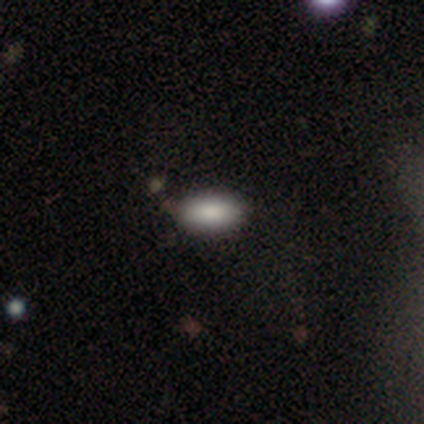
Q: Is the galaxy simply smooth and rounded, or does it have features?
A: smooth — 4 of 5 (80%).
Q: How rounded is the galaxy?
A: in between — 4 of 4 (100%).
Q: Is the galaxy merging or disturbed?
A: none — 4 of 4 (100%).